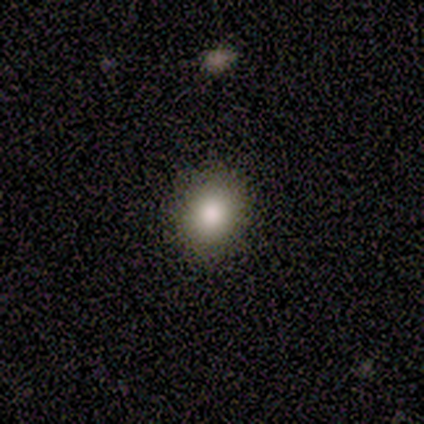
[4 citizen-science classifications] Smooth or featured?
  - smooth: 100% *
  - featured or disk: 0%
  - star or artifact: 0%
How rounded?
  - round: 100% *
  - in between: 0%
  - cigar-shaped: 0%
Merging?
  - none: 100% *
  - minor disturbance: 0%
  - major disturbance: 0%
  - merger: 0%